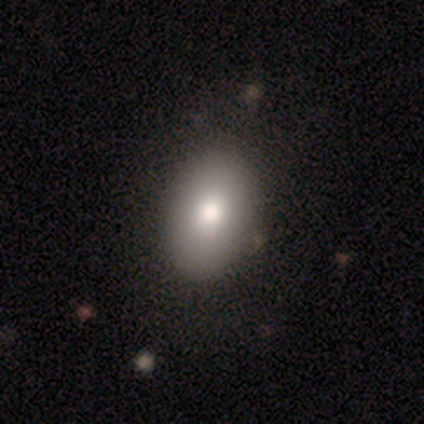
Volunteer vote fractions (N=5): Q: Smooth or featured?
A: smooth (100%)
Q: How rounded?
A: in between (80%); runner-up: round (20%)
Q: Merging?
A: none (80%); runner-up: minor disturbance (20%)